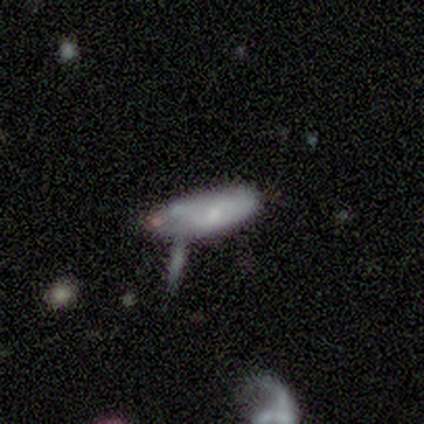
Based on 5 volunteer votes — Smooth or featured?
  - smooth: 60% *
  - featured or disk: 20%
  - star or artifact: 20%
How rounded?
  - in between: 67% *
  - cigar-shaped: 33%
  - round: 0%
Merging?
  - minor disturbance: 50% *
  - none: 25%
  - merger: 25%
  - major disturbance: 0%